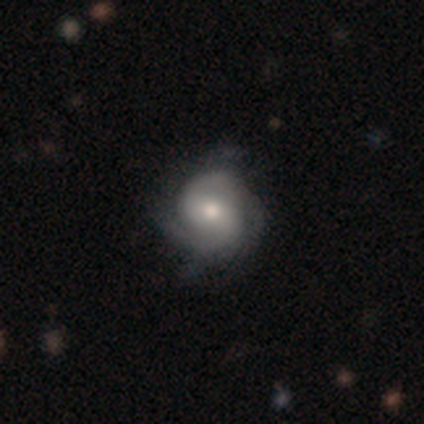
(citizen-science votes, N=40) Morphology: type=featured or disk (75%); edge-on=no (100%); bar=weak (43%, tied with no); spiral arms=yes (97%); winding=medium (52%); arm count=2 (69%); bulge=moderate (60%); merging=none (68%).